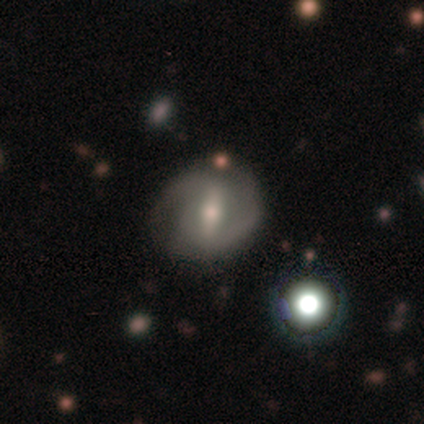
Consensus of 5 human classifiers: smooth-or-featured: featured or disk: 60% | smooth: 20% | star or artifact: 20%
  disk-edge-on: no: 100% | yes: 0%
    bar: weak: 67% | strong: 33% | no: 0%
    has-spiral-arms: yes: 100% | no: 0%
      spiral-winding: tight: 33% (tied) | medium: 33% (tied) | loose: 33% (tied)
      spiral-arm-count: 2: 100% | 1: 0% | 3: 0% | 4: 0% | more than 4: 0% | can't tell: 0%
    bulge-size: small: 100% | dominant: 0% | large: 0% | moderate: 0% | none: 0%
  merging: none: 50% (tied) | minor disturbance: 50% (tied) | major disturbance: 0% | merger: 0%